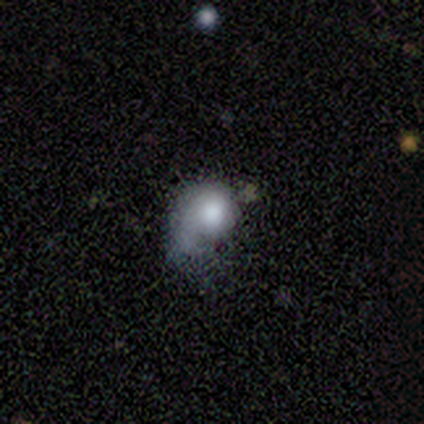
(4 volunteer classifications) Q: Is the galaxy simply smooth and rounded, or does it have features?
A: featured or disk — 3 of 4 (75%).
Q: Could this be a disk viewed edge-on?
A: no — 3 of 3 (100%).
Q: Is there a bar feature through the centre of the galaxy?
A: no — 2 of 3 (67%).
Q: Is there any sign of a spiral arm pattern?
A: yes — 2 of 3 (67%).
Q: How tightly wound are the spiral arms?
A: tight — 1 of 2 (50%, tied with loose).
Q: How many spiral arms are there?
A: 1 — 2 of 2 (100%).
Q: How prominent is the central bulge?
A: large — 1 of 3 (33%, tied with moderate and small).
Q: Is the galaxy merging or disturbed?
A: minor disturbance — 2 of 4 (50%).